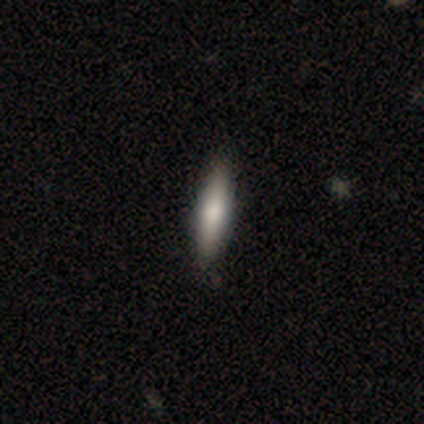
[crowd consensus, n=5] Morphology: type=smooth (60%); roundness=cigar-shaped (67%); merging=none (100%).